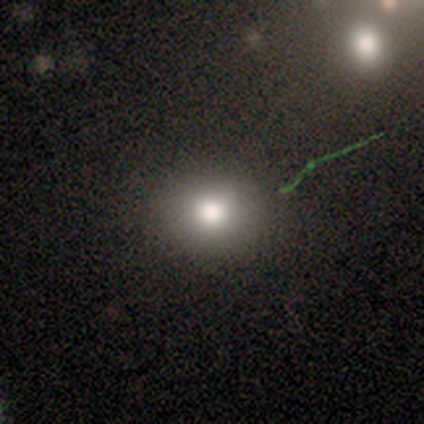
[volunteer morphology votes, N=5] Volunteers were most divided on "how rounded": round: 60%, in between: 40%, cigar-shaped: 0%. More confident: smooth or featured — smooth (100%); merging — none (60%).